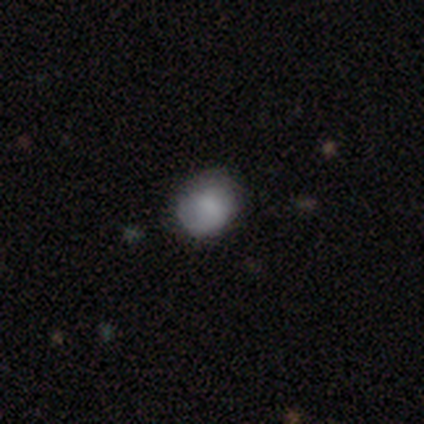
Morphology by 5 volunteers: type=smooth (80%); roundness=round (75%); merging=none (50%).